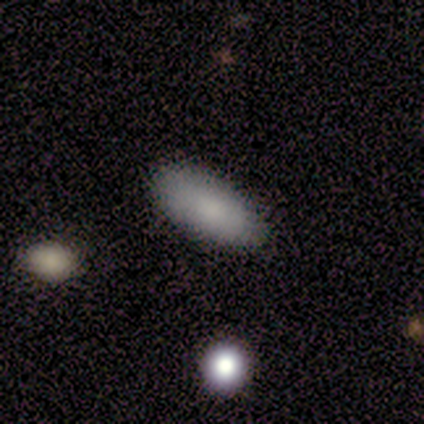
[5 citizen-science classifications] This is clearly a smooth galaxy (100%). How rounded: clearly in between (80%). Merging: clearly none (80%).